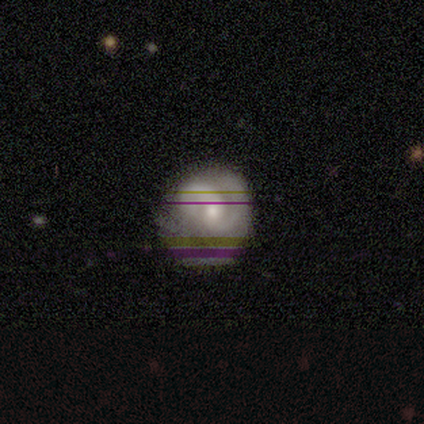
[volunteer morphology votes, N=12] Volunteers were most divided on "bulge size" (2-way tie): moderate: 50%, small: 50%, dominant: 0%, large: 0%, none: 0%; "merging" (2-way tie): none: 45%, minor disturbance: 45%, major disturbance: 9%, merger: 0%. More confident: edge-on disk — no (100%); spiral arms — yes (100%); smooth or featured — featured or disk (83%); bar — no (70%); spiral winding — medium (60%); spiral arm count — 2 (50%).